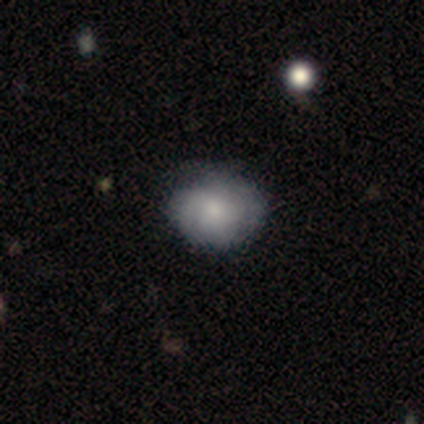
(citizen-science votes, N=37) Smooth or featured?
  - smooth: 70% *
  - featured or disk: 24%
  - star or artifact: 5%
How rounded?
  - round: 81% *
  - in between: 19%
  - cigar-shaped: 0%
Merging?
  - none: 80% *
  - minor disturbance: 14%
  - major disturbance: 6%
  - merger: 0%